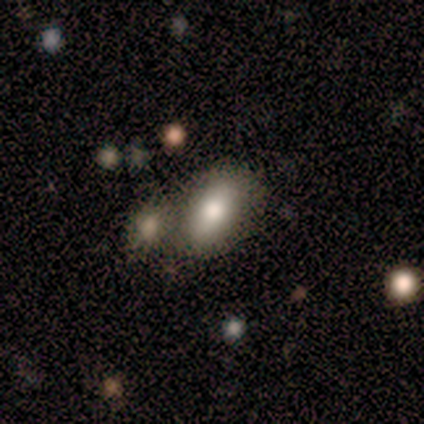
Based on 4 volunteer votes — This is clearly a smooth galaxy (100%). How rounded: possibly cigar-shaped (50%). Merging: clearly none (100%).